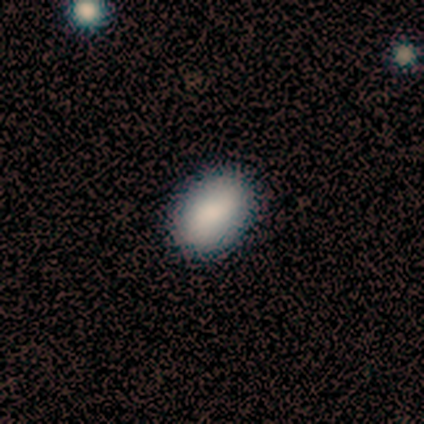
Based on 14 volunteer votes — Smooth or featured? 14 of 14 (100%) said smooth. How rounded? 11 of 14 (79%) said in between. Merging? 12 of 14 (86%) said none.